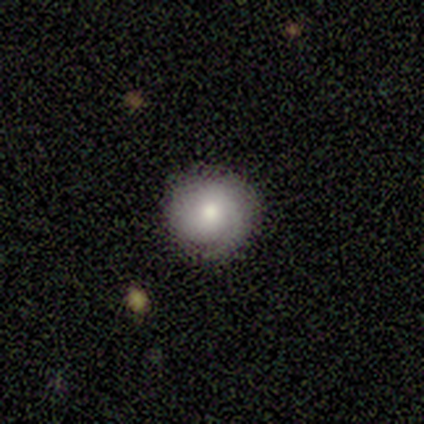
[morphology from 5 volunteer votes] A featured or disk galaxy (60%) with no bar (100%), 1 (67%) tight (67%) spiral arms (100%) and a moderate central bulge (100%).

Vote fractions:
- Smooth or featured? featured or disk: 60% / smooth: 40% / star or artifact: 0%
- Edge-on disk? no: 100% / yes: 0%
- Bar? no: 100% / strong: 0% / weak: 0%
- Spiral arms? yes: 100% / no: 0%
- Spiral winding? tight: 67% / medium: 33% / loose: 0%
- Spiral arm count? 1: 67% / 2: 33% / 3: 0% / 4: 0% / more than 4: 0% / can't tell: 0%
- Bulge size? moderate: 100% / dominant: 0% / large: 0% / small: 0% / none: 0%
- Merging? none: 80% / minor disturbance: 20% / major disturbance: 0% / merger: 0%